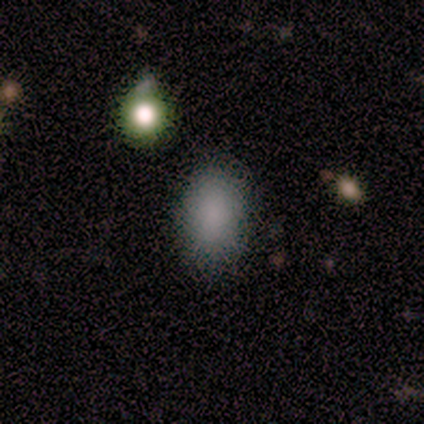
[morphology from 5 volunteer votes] Overall: smooth (80%). How rounded: in between (75%). Merging: none (50%; minor disturbance 25%).